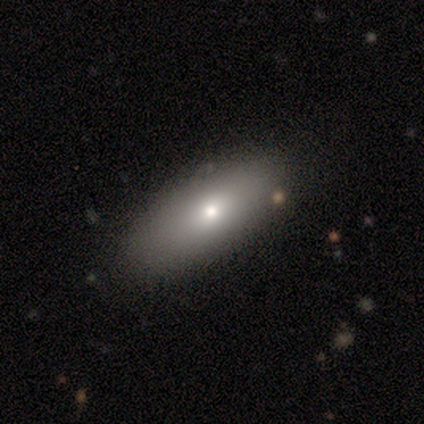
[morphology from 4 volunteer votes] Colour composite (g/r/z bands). It shows a smooth galaxy with no disk features (100%) that is in between round and cigar-shaped (75%). Merging: none (100%).